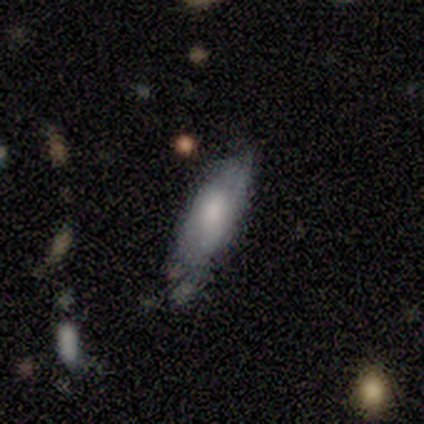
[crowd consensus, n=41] Smooth or featured? smooth (71%)
How rounded? cigar-shaped (52%)
Merging? none (59%)